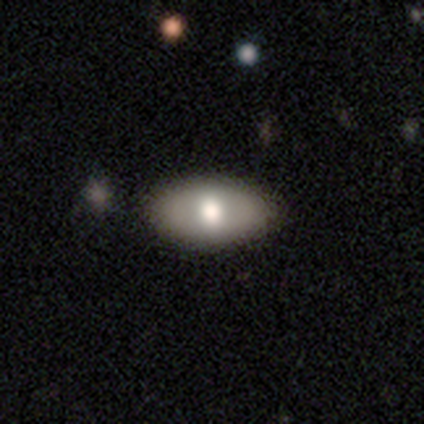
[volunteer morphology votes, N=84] This is likely a smooth galaxy (67%). How rounded: clearly in between (96%). Merging: clearly none (88%).